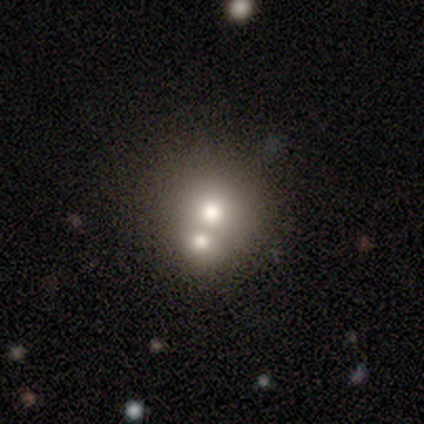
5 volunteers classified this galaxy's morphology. This appears to be a smooth galaxy with no disk features (80%) that is round (75%). Merging: merger (60%).